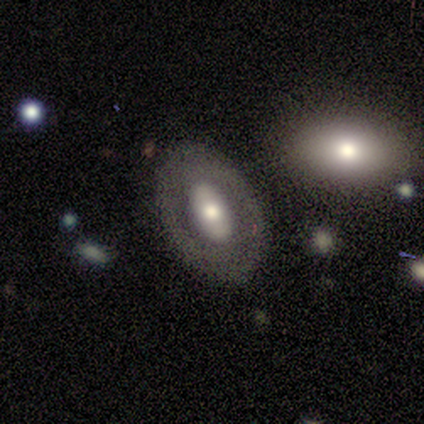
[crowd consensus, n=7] Smooth or featured?
  - featured or disk: 71% *
  - smooth: 29%
  - star or artifact: 0%
Edge-on disk?
  - no: 100% *
  - yes: 0%
Bar?
  - strong: 40% * (tied)
  - no: 40% * (tied)
  - weak: 20%
Spiral arms?
  - no: 80% *
  - yes: 20%
Bulge size?
  - moderate: 80% *
  - small: 20%
  - dominant: 0%
  - large: 0%
  - none: 0%
Merging?
  - none: 86% *
  - minor disturbance: 14%
  - major disturbance: 0%
  - merger: 0%